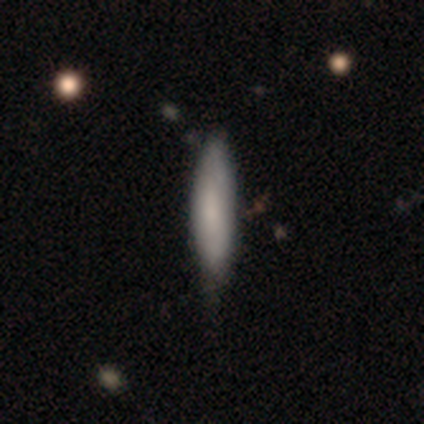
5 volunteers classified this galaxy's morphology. Volunteers were most divided on "merging": none: 60%, minor disturbance: 40%, major disturbance: 0%, merger: 0%. More confident: smooth or featured — smooth (100%); how rounded — cigar-shaped (80%).